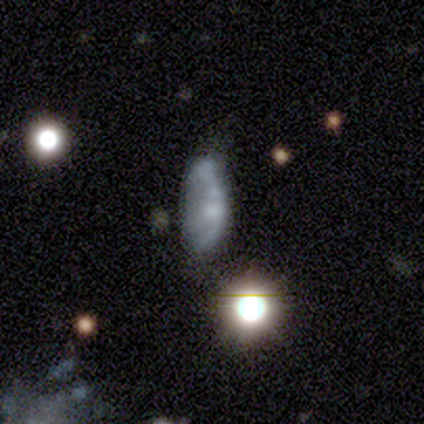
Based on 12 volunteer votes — smooth 58%, featured or disk 25%, star or artifact 17%. Down the decision tree: how rounded — in between (100%); merging — minor disturbance (70%).